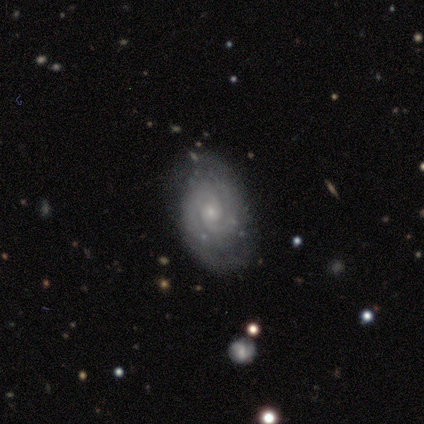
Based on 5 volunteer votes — Smooth or featured?
  - featured or disk: 80% *
  - star or artifact: 20%
  - smooth: 0%
Edge-on disk?
  - no: 100% *
  - yes: 0%
Bar?
  - no: 75% *
  - weak: 25%
  - strong: 0%
Spiral arms?
  - yes: 100% *
  - no: 0%
Spiral winding?
  - tight: 100% *
  - medium: 0%
  - loose: 0%
Spiral arm count?
  - 2: 75% *
  - 1: 25%
  - 3: 0%
  - 4: 0%
  - more than 4: 0%
  - can't tell: 0%
Bulge size?
  - small: 100% *
  - dominant: 0%
  - large: 0%
  - moderate: 0%
  - none: 0%
Merging?
  - none: 75% *
  - major disturbance: 25%
  - minor disturbance: 0%
  - merger: 0%